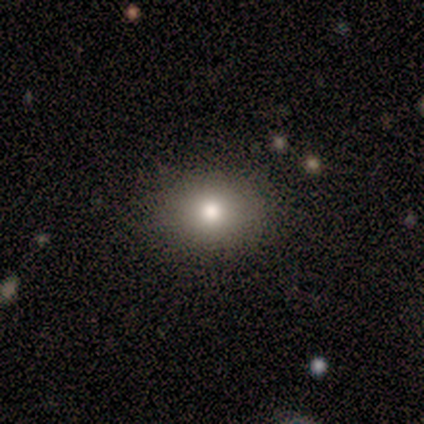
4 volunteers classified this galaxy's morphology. Smooth or featured: smooth — 75% (star or artifact — 25%)
How rounded: round — 67% (in between — 33%)
Merging: none — 67% (minor disturbance — 33%)